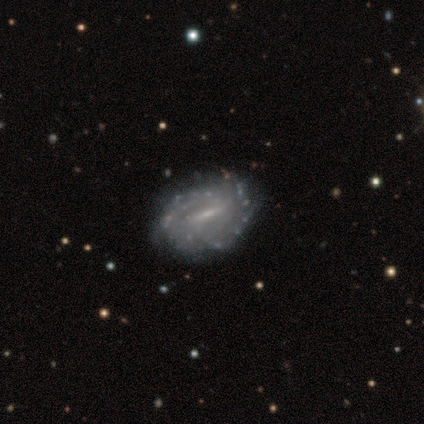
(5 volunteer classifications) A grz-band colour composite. It shows a featured or disk galaxy (100%) with a weak bar (60%), 2 (75%) tight (75%) spiral arms (80%) and a moderate central bulge (60%). Merging: none (100%).